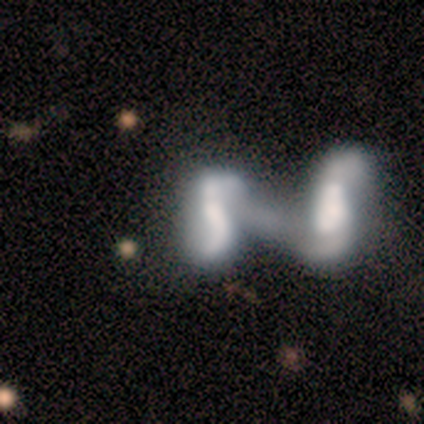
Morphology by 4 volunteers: Smooth or featured?
  - smooth: 50% * (tied)
  - featured or disk: 50% * (tied)
  - star or artifact: 0%
How rounded?
  - in between: 100% *
  - round: 0%
  - cigar-shaped: 0%
Merging?
  - merger: 100% *
  - none: 0%
  - minor disturbance: 0%
  - major disturbance: 0%